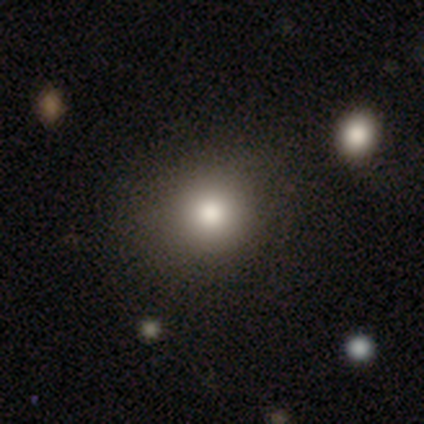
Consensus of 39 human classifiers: Smooth or featured: smooth — 87% (featured or disk — 8%)
How rounded: round — 88% (in between — 12%)
Merging: none — 73% (minor disturbance — 8%)